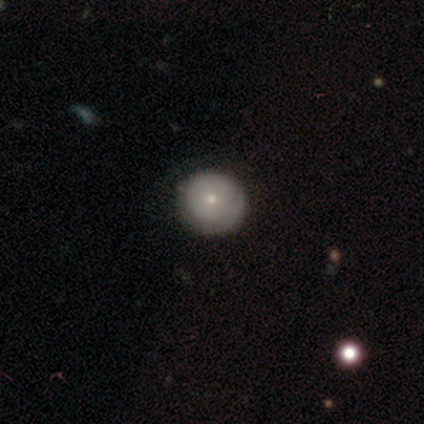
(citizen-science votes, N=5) Q: Smooth or featured?
A: smooth (60%); runner-up: featured or disk (20%)
Q: How rounded?
A: round (100%)
Q: Merging?
A: none (100%)